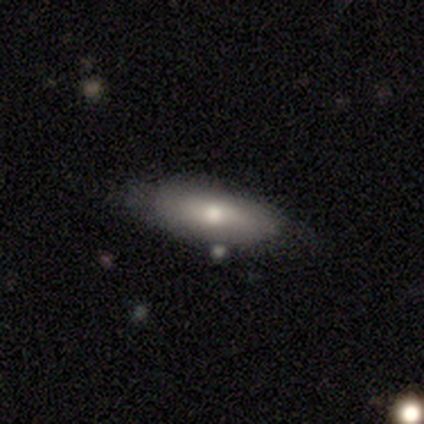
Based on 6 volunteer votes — Morphology: type=smooth (50%, tied with featured or disk); roundness=in between (67%); merging=none (67%).